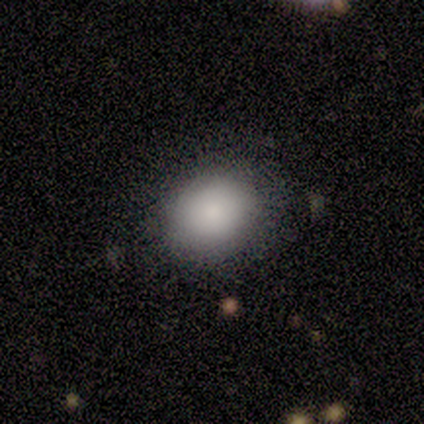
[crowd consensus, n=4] A smooth galaxy with no disk features (100%) that is round (75%).

Vote fractions:
- Smooth or featured? smooth: 100% / featured or disk: 0% / star or artifact: 0%
- How rounded? round: 75% / in between: 25% / cigar-shaped: 0%
- Merging? none: 75% / minor disturbance: 25% / major disturbance: 0% / merger: 0%